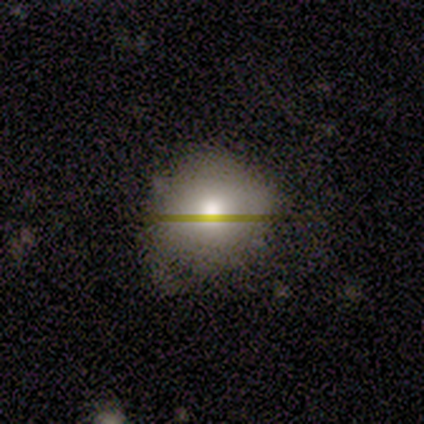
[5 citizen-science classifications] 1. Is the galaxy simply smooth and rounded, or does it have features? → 100% smooth, 0% featured or disk, 0% star or artifact.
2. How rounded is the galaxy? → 60% round, 40% in between, 0% cigar-shaped.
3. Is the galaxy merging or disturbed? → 40% none (tied), 40% minor disturbance (tied), 20% merger, 0% major disturbance.